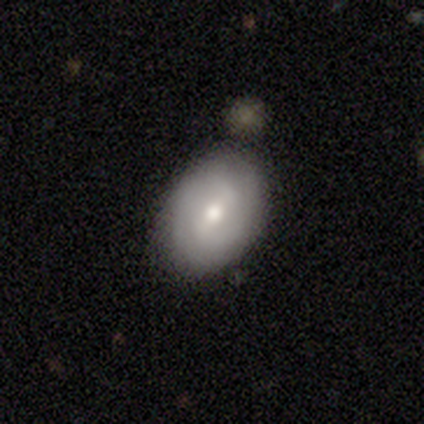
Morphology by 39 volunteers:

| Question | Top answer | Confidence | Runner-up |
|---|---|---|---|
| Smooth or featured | featured or disk | 64% | smooth (36%) |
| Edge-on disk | no | 96% | yes (4%) |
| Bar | weak | 50% | strong (25%) |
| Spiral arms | yes | 79% | no (21%) |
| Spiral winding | tight | 47% | medium (37%) |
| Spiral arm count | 2 | 68% | can't tell (26%) |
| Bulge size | moderate | 71% | small (25%) |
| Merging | none | 56% | minor disturbance (33%) |